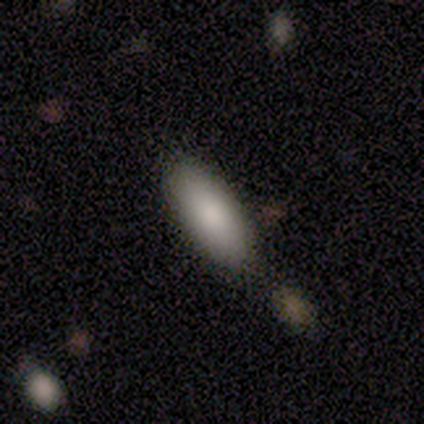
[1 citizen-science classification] This is clearly a smooth galaxy (100%). How rounded: clearly in between (100%). Merging: clearly none (100%).